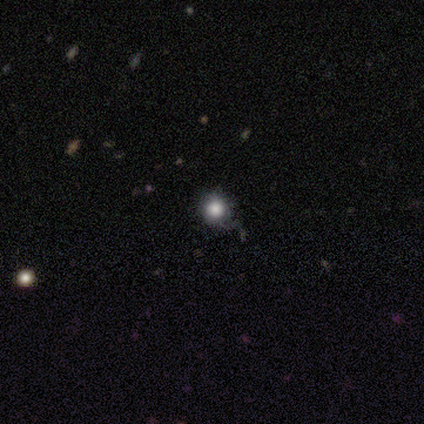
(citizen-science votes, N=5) Morphology: type=smooth (100%); roundness=round (100%); merging=none (80%).